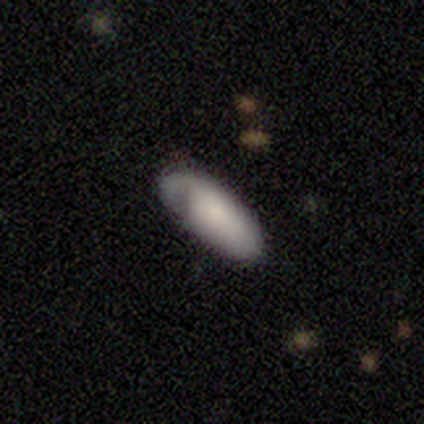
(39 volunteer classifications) Overall: smooth (74%). How rounded: in between (86%). Merging: none (73%).